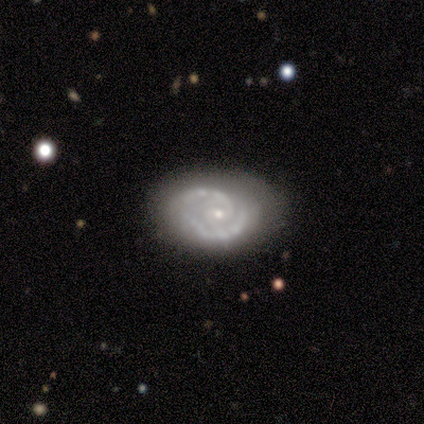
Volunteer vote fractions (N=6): Morphology: type=featured or disk (67%); edge-on=no (100%); bar=no (100%); spiral arms=yes (100%); winding=tight (50%, tied with medium); arm count=2 (100%); bulge=small (100%); merging=none (80%).